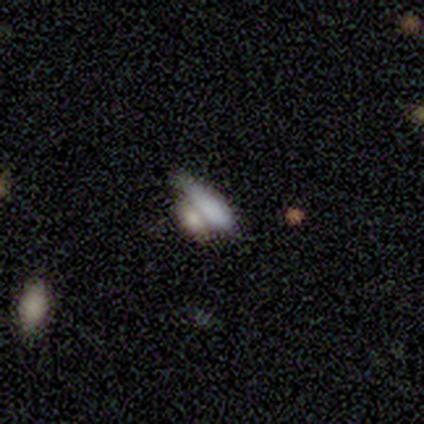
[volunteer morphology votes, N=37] Q: Smooth or featured?
A: smooth (59%); runner-up: featured or disk (30%)
Q: How rounded?
A: in between (50%); runner-up: cigar-shaped (45%)
Q: Merging?
A: merger (55%); runner-up: none (24%)